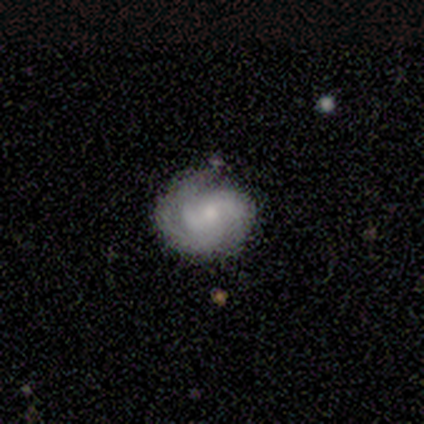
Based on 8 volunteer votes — Q: Smooth or featured?
A: featured or disk (88%); runner-up: smooth (12%)
Q: Edge-on disk?
A: no (100%)
Q: Bar?
A: no (71%); runner-up: weak (29%)
Q: Spiral arms?
A: yes (100%)
Q: Spiral winding?
A: tight (71%); runner-up: medium (29%)
Q: Spiral arm count?
A: 3 (86%); runner-up: 4 (14%)
Q: Bulge size?
A: small (71%); runner-up: moderate (29%)
Q: Merging?
A: none (62%); runner-up: minor disturbance (25%)